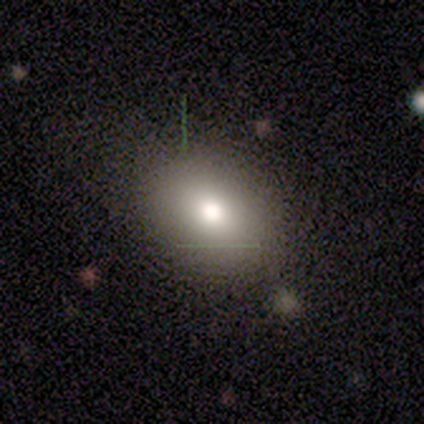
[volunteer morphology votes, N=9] smooth 78%, featured or disk 11%, star or artifact 11%. Down the decision tree: how rounded — in between (57%); merging — none (100%).